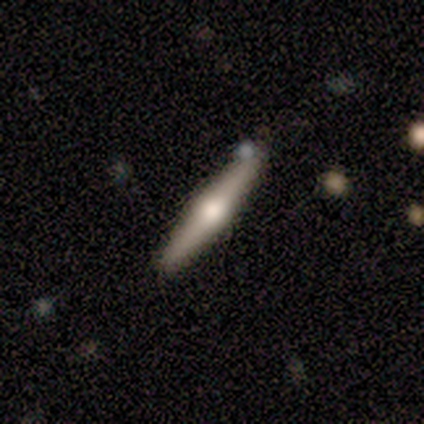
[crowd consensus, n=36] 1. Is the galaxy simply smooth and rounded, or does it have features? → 69% featured or disk, 28% smooth, 3% star or artifact.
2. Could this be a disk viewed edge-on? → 96% yes, 4% no.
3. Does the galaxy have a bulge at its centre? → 92% rounded, 8% none, 0% boxy.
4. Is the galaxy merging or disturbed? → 89% none, 9% minor disturbance, 3% merger, 0% major disturbance.